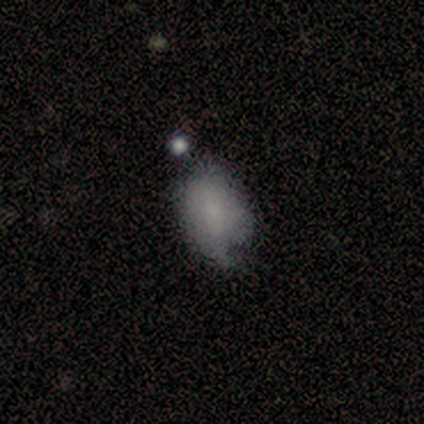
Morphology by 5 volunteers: Smooth or featured: smooth — 100%
How rounded: in between — 80% (round — 20%)
Merging: minor disturbance — 60% (none — 20%)